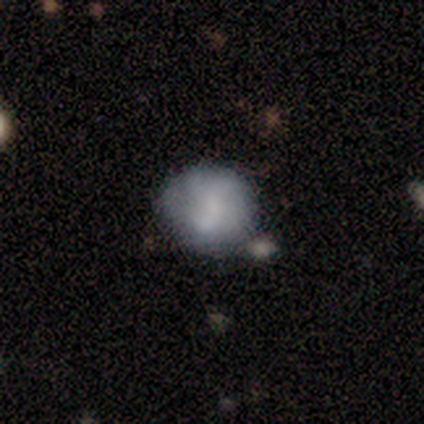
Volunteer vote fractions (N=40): Smooth or featured? 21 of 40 (52%) said smooth. How rounded? 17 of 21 (81%) said round. Merging? 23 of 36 (64%) said none.